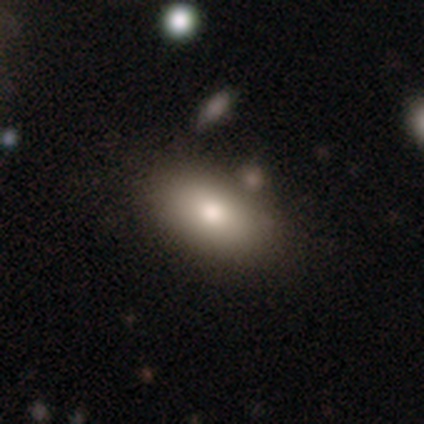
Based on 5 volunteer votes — A smooth galaxy with no disk features (40%, tied with featured or disk) that is in between round and cigar-shaped (100%). Merging: minor disturbance (75%).